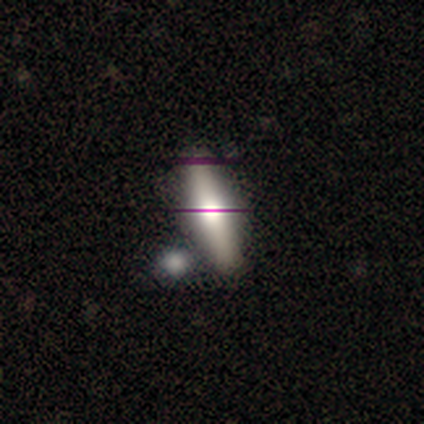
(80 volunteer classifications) smooth 52%, featured or disk 30%, star or artifact 18%. Down the decision tree: how rounded — in between (52%); merging — none (33%).